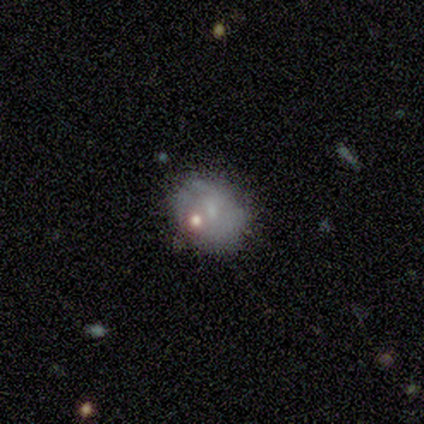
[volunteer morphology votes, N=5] Volunteers were most divided on "smooth or featured" (2-way tie): smooth: 40%, featured or disk: 40%, star or artifact: 20%; "how rounded" (2-way tie): round: 50%, in between: 50%, cigar-shaped: 0%. More confident: merging — none (75%).